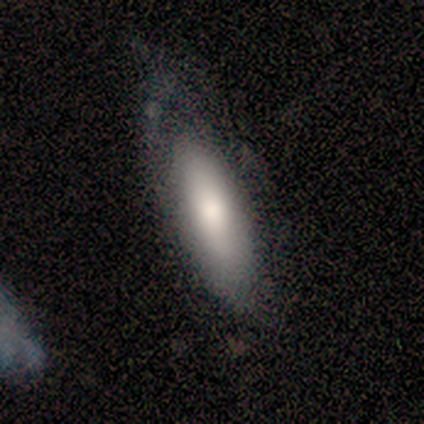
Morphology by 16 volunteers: Overall: smooth (56%; featured or disk 44%). How rounded: in between (78%). Merging: none (88%).